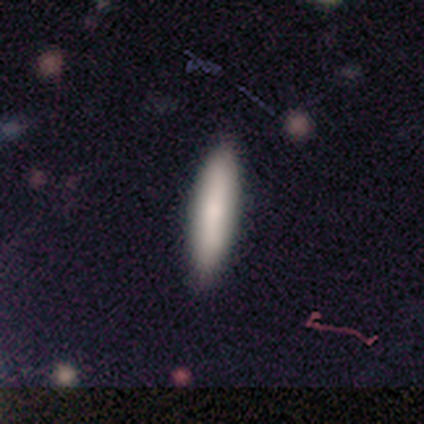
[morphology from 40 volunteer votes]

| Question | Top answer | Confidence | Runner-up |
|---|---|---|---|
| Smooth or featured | smooth | 85% | featured or disk (8%) |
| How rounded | cigar-shaped | 68% | in between (32%) |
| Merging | none | 95% | minor disturbance (3%) |